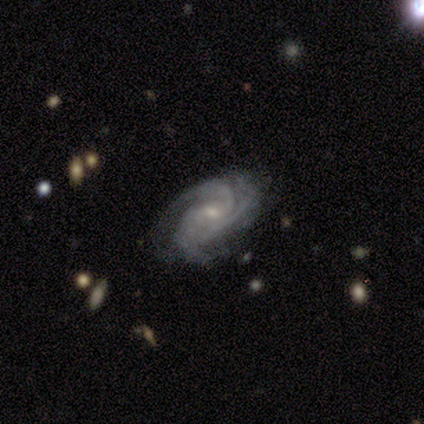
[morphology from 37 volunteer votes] Smooth or featured?
  - featured or disk: 86% *
  - smooth: 8%
  - star or artifact: 5%
Edge-on disk?
  - no: 100% *
  - yes: 0%
Bar?
  - weak: 50% *
  - no: 41%
  - strong: 9%
Spiral arms?
  - yes: 100% *
  - no: 0%
Spiral winding?
  - tight: 69% *
  - medium: 31%
  - loose: 0%
Spiral arm count?
  - 3: 69% *
  - can't tell: 12%
  - 2: 9%
  - 1: 3%
  - 4: 3%
  - more than 4: 3%
Bulge size?
  - small: 78% *
  - moderate: 19%
  - none: 3%
  - dominant: 0%
  - large: 0%
Merging?
  - none: 60% *
  - minor disturbance: 31%
  - merger: 6%
  - major disturbance: 3%